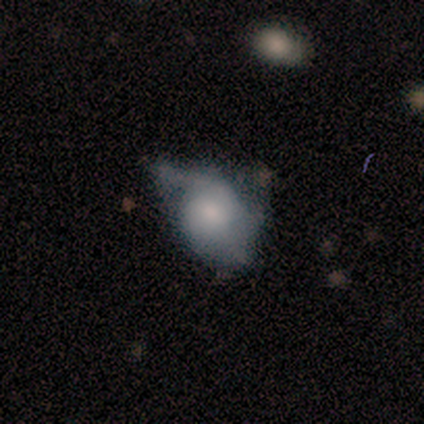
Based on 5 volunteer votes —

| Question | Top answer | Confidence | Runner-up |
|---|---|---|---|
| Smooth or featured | featured or disk | 60% | smooth (40%) |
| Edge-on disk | no | 100% | — |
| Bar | no | 67% | weak (33%) |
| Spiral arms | yes | 67% | no (33%) |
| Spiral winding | medium | 50% | tied: loose (50%) |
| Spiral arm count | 1 | 100% | — |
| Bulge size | small | 100% | — |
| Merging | minor disturbance | 80% | merger (20%) |